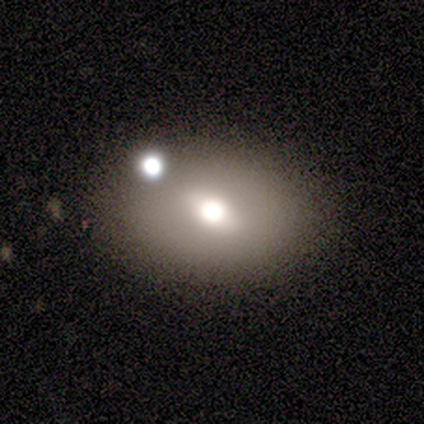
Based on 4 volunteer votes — Smooth or featured? 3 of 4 (75%) said smooth. How rounded? 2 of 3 (67%) said round. Merging? 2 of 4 (50%, tied with merger) said none.